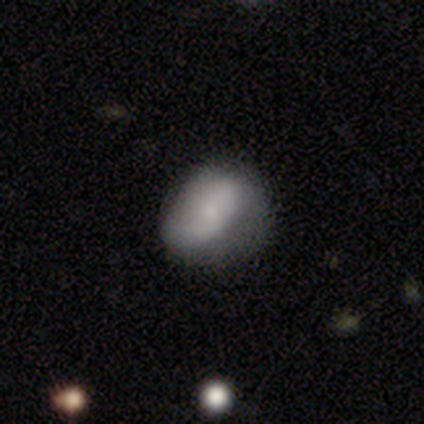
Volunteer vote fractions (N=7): Volunteers were most divided on "merging" (2-way tie): none: 50%, minor disturbance: 50%, major disturbance: 0%, merger: 0%. More confident: how rounded — in between (100%); smooth or featured — smooth (57%).